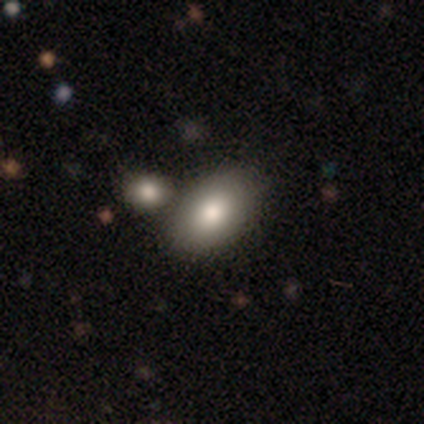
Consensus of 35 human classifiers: smooth-or-featured: smooth: 77% | featured or disk: 11% | star or artifact: 11%
  how-rounded: in between: 93% | round: 7% | cigar-shaped: 0%
  merging: merger: 55% | none: 0% | minor disturbance: 0% | major disturbance: 0%